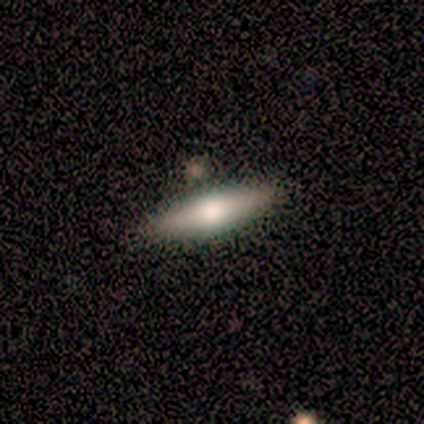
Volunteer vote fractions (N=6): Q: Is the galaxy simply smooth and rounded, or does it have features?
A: featured or disk — 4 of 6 (67%).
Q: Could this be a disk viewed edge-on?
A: yes — 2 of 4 (50%, tied with no).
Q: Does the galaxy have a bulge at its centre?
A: rounded — 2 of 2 (100%).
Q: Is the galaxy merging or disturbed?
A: none — 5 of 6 (83%).